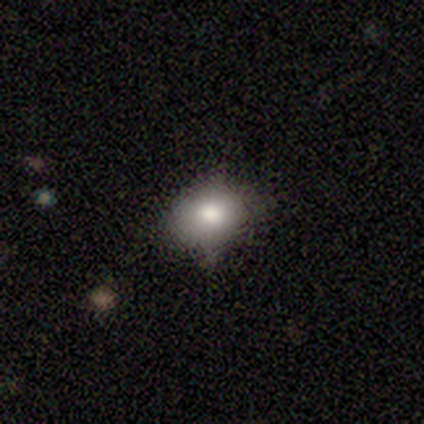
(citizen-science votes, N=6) This appears to be a smooth galaxy with no disk features (83%) that is in between round and cigar-shaped (60%). Merging: none (40%, tied with major disturbance).